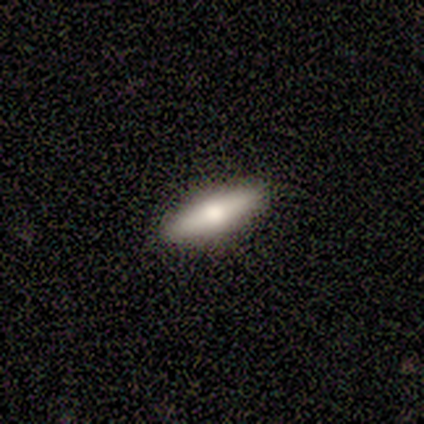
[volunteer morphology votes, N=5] Smooth or featured? 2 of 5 (40%, tied with featured or disk) said smooth. How rounded? 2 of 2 (100%) said in between. Merging? 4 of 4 (100%) said none.